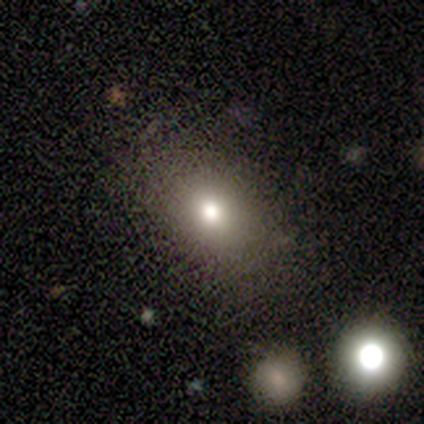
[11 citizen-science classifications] A smooth galaxy with no disk features (73%) that is round (62%). Merging: none (62%).